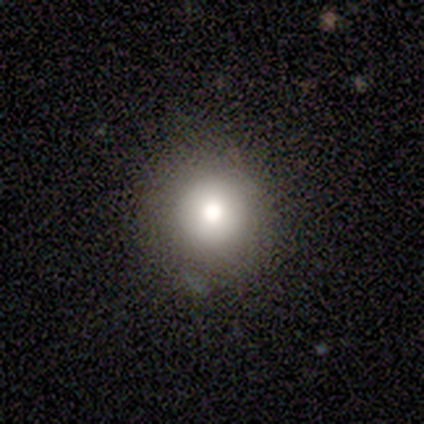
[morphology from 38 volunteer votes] Q: Smooth or featured?
A: smooth (74%); runner-up: star or artifact (18%)
Q: How rounded?
A: round (93%); runner-up: in between (7%)
Q: Merging?
A: none (87%); runner-up: minor disturbance (10%)